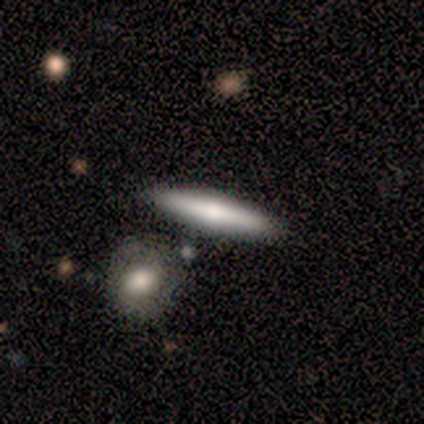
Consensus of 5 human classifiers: Smooth or featured? 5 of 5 (100%) said smooth. How rounded? 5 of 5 (100%) said cigar-shaped. Merging? 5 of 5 (100%) said none.